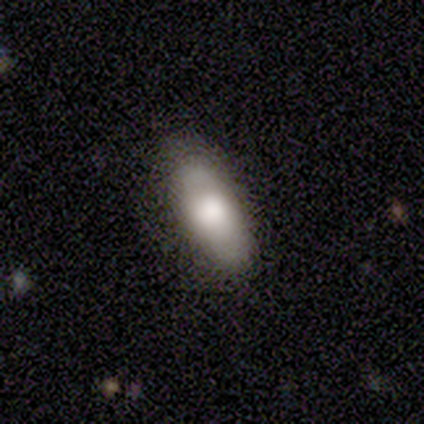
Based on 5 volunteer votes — Smooth or featured? 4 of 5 (80%) said smooth. How rounded? 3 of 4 (75%) said cigar-shaped. Merging? 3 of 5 (60%) said none.